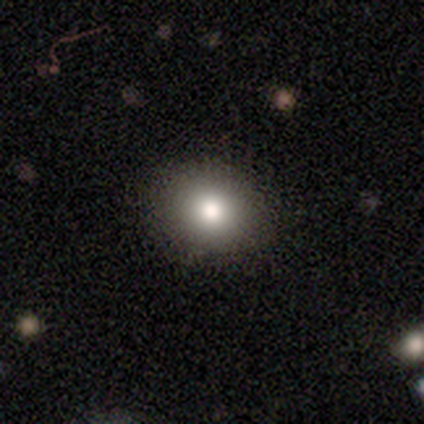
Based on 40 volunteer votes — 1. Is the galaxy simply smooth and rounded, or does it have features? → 75% smooth, 18% star or artifact, 8% featured or disk.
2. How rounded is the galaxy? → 70% round, 23% in between, 7% cigar-shaped.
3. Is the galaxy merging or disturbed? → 91% none, 6% major disturbance, 3% minor disturbance, 0% merger.